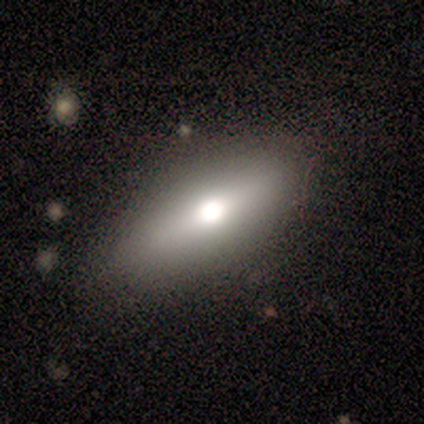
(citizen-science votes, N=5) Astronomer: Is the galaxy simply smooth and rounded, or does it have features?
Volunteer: smooth — 60% (runner-up: featured or disk, 40%).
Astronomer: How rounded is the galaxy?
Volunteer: in between — 67%.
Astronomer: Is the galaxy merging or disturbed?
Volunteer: none — 100%.